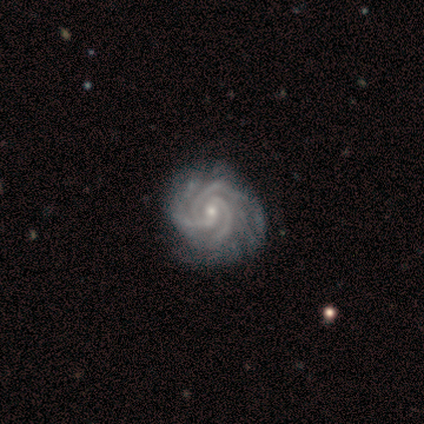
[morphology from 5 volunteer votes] This appears to be a featured or disk galaxy (100%) with a weak bar (60%), 3 (80%) medium (60%) spiral arms (100%) and a small central bulge (60%). Merging: none (80%).